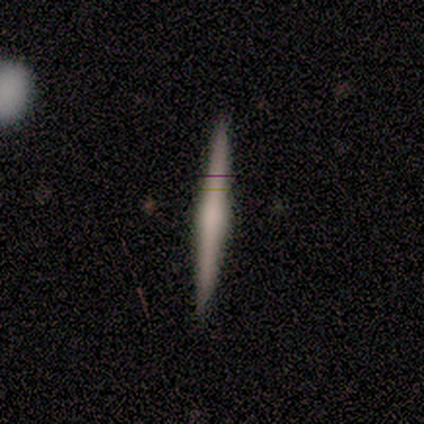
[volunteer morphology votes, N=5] Smooth or featured? 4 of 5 (80%) said featured or disk. Edge-on disk? 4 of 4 (100%) said yes. Edge-on bulge? 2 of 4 (50%, tied with rounded) said none. Merging? 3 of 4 (75%) said none.